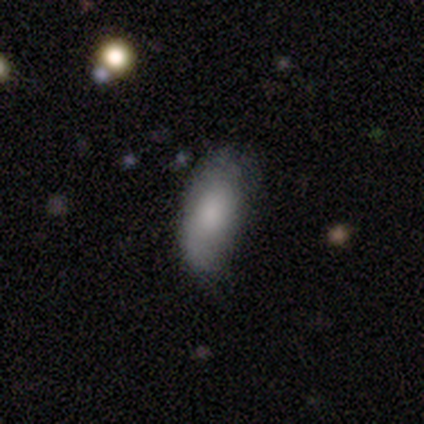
Smooth or featured? smooth (59%)
How rounded? in between (92%)
Merging? none (41%)